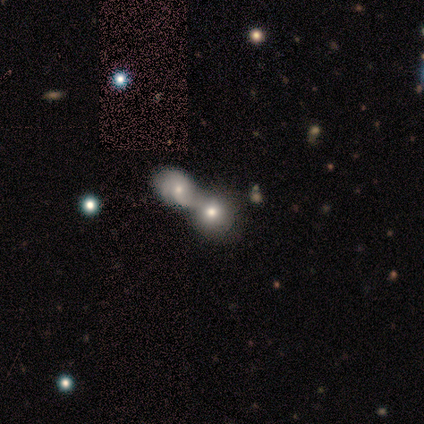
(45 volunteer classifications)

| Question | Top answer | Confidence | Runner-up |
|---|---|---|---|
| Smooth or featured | smooth | 78% | featured or disk (16%) |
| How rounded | in between | 74% | round (26%) |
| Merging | merger | 98% | none (2%) |